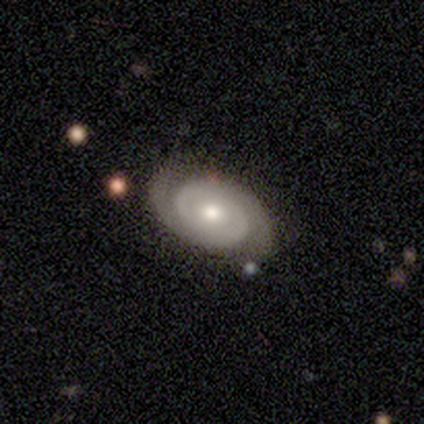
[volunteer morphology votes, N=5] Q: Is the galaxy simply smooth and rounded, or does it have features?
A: featured or disk — 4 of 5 (80%).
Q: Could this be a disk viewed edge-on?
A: no — 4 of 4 (100%).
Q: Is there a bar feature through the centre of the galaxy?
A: no — 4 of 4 (100%).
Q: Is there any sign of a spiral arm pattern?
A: yes — 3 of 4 (75%).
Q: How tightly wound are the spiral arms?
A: tight — 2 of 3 (67%).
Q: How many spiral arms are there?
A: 2 — 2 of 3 (67%).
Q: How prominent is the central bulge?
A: moderate — 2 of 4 (50%, tied with small).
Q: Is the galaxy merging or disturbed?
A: none — 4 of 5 (80%).